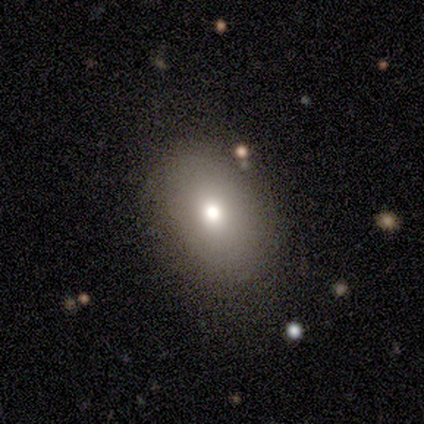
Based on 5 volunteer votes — Smooth or featured? 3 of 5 (60%) said smooth. How rounded? 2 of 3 (67%) said in between. Merging? 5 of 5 (100%) said none.